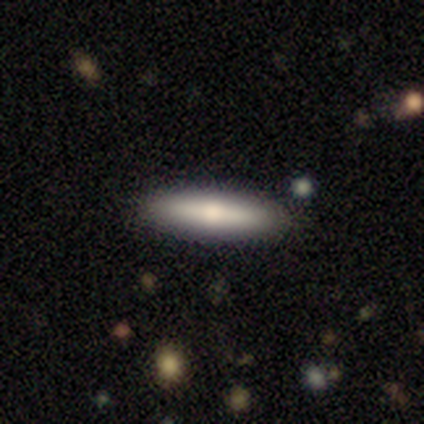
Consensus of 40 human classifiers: Smooth or featured? smooth (65%)
How rounded? cigar-shaped (62%)
Merging? none (84%)